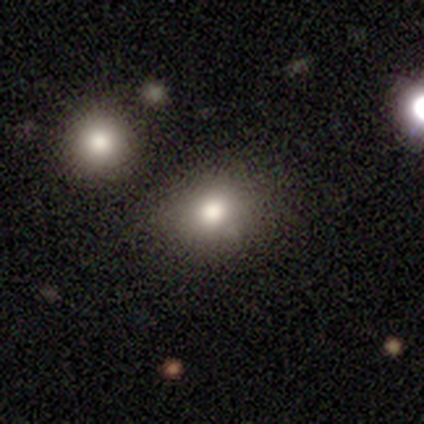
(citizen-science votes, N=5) smooth 80%, star or artifact 20%, featured or disk 0%. Down the decision tree: how rounded — round (75%); merging — none (100%).